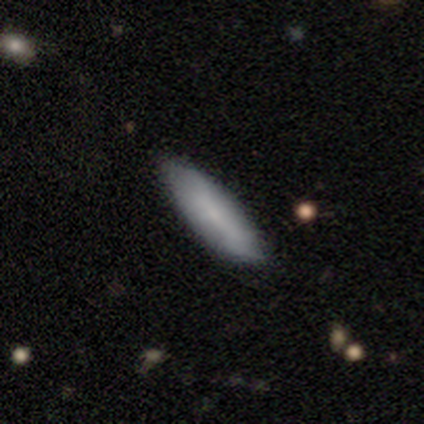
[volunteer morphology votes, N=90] smooth 78%, featured or disk 17%, star or artifact 6%. Down the decision tree: how rounded — cigar-shaped (59%); merging — none (82%).